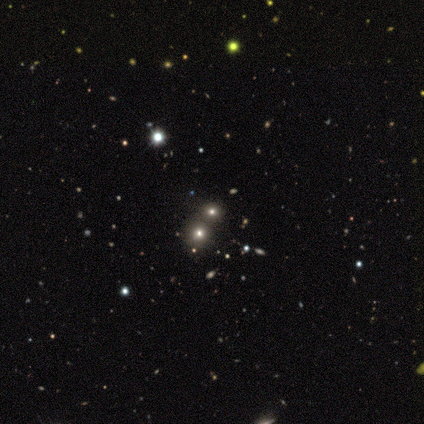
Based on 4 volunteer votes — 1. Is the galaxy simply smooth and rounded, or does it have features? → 50% smooth (tied), 50% star or artifact (tied), 0% featured or disk.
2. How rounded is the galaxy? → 50% round (tied), 50% in between (tied), 0% cigar-shaped.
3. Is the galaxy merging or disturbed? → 50% none (tied), 50% minor disturbance (tied), 0% major disturbance, 0% merger.